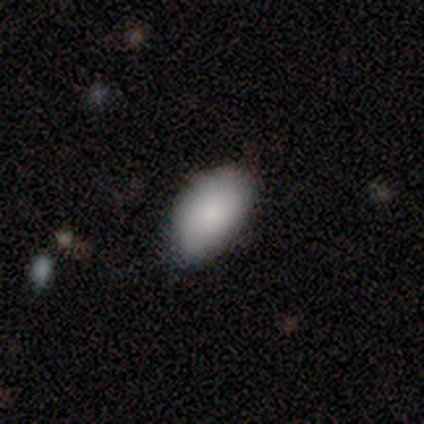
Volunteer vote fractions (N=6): Morphology: type=smooth (50%); roundness=in between (100%); merging=none (80%).